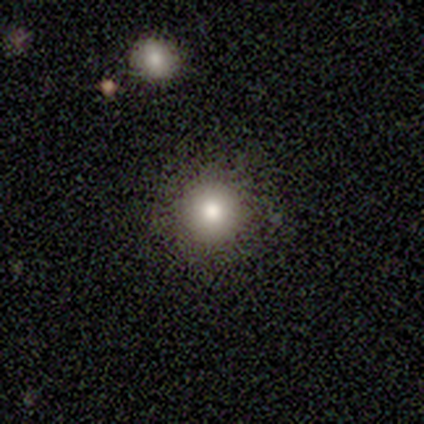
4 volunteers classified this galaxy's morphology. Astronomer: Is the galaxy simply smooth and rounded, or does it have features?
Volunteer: smooth — 75%.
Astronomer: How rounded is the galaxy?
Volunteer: round — 100%.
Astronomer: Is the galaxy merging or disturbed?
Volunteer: none — 100%.